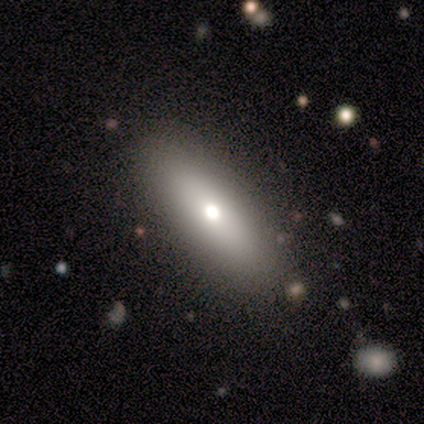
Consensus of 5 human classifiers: This is likely a featured or disk galaxy (60%). It is likely viewed edge-on (67%). Edge-on bulge: possibly none (50%, tied with rounded). Merging: clearly none (100%).